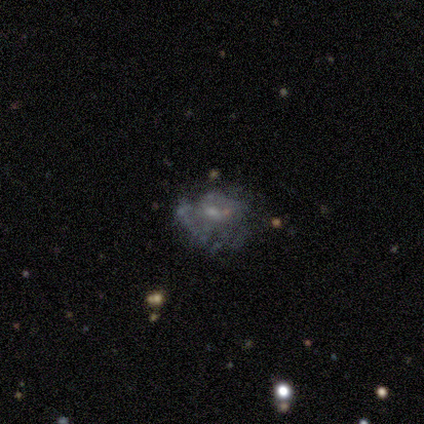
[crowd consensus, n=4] Smooth or featured?
  - smooth: 50% * (tied)
  - featured or disk: 50% * (tied)
  - star or artifact: 0%
How rounded?
  - round: 50% * (tied)
  - in between: 50% * (tied)
  - cigar-shaped: 0%
Merging?
  - minor disturbance: 75% *
  - merger: 25%
  - none: 0%
  - major disturbance: 0%